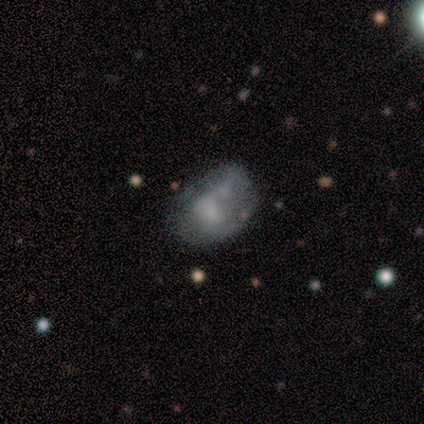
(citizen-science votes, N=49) This appears to be a featured or disk galaxy (45%) with no bar (77%), no spiral arms (77%) and no central bulge (32%). Merging: minor disturbance (42%).